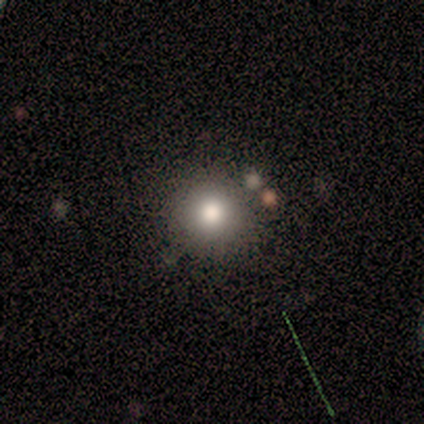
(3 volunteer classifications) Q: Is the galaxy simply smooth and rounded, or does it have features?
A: smooth — 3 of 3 (100%).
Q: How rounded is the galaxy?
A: round — 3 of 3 (100%).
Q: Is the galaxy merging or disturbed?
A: none — 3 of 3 (100%).